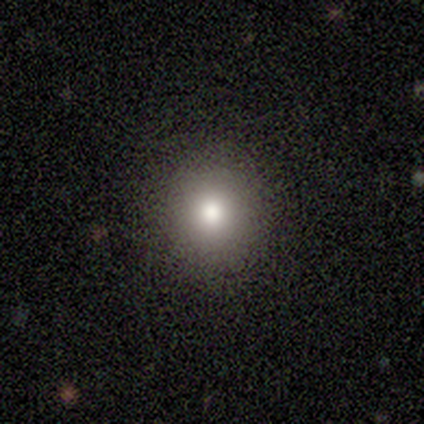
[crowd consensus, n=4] Volunteers were most divided on "merging": none: 67%, minor disturbance: 33%, major disturbance: 0%, merger: 0%. More confident: how rounded — round (100%); smooth or featured — smooth (75%).